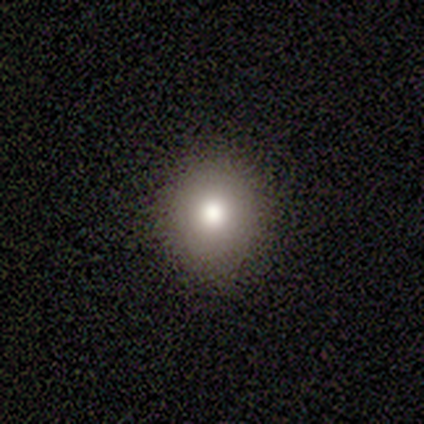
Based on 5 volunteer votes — Smooth or featured? smooth (80%)
How rounded? round (100%)
Merging? none (80%)